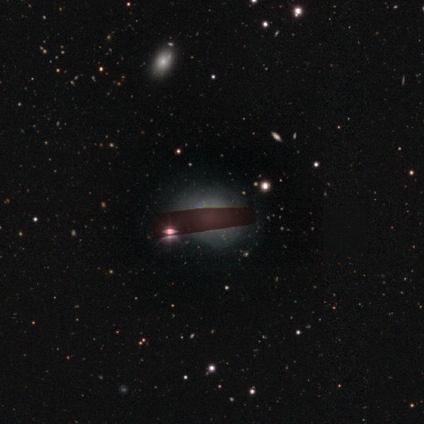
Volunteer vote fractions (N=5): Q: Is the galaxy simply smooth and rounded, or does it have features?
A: smooth — 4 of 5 (80%).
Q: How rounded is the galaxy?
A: in between — 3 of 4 (75%).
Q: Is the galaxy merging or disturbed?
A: none — 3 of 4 (75%).